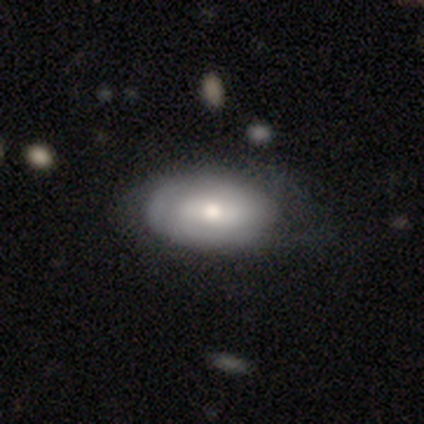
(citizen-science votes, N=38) This is likely a smooth galaxy (63%). How rounded: clearly in between (92%). Merging: possibly none (55%).